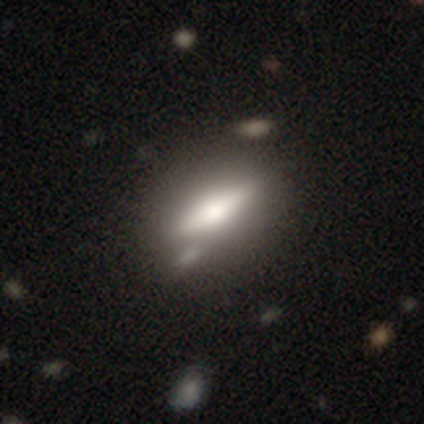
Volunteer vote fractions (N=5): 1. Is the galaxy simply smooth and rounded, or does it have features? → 60% smooth, 40% featured or disk, 0% star or artifact.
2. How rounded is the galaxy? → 67% in between, 33% cigar-shaped, 0% round.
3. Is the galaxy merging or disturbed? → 60% none, 40% minor disturbance, 0% major disturbance, 0% merger.